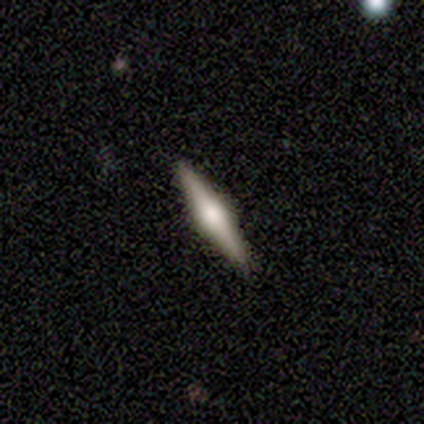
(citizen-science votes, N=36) Smooth or featured: featured or disk — 69% (smooth — 25%)
Edge-on disk: yes — 100%
Edge-on bulge: rounded — 92% (boxy — 4%)
Merging: none — 100%